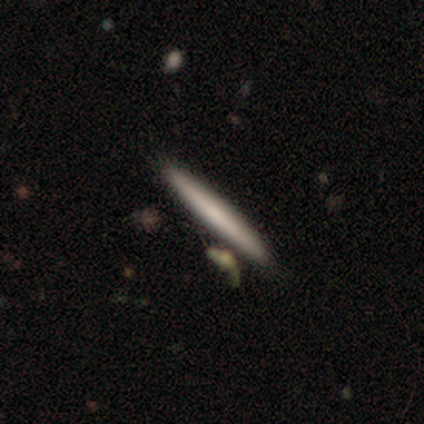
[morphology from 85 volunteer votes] smooth-or-featured: smooth: 65% | featured or disk: 27% | star or artifact: 8%
  how-rounded: cigar-shaped: 100% | round: 0% | in between: 0%
  merging: none: 78% | merger: 10% | minor disturbance: 9% | major disturbance: 3%